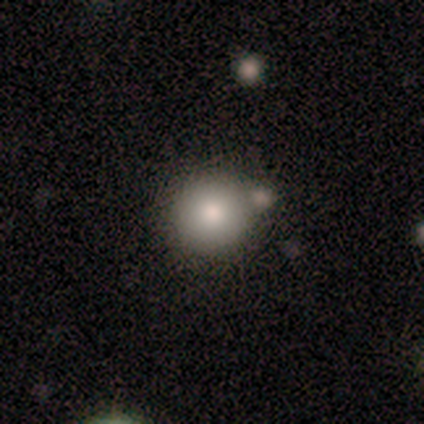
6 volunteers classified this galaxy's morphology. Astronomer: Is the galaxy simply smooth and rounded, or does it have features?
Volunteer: smooth — 83%.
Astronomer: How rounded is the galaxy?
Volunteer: round — 100%.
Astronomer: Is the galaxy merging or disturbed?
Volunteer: none — 40%, tied with merger at 40%.